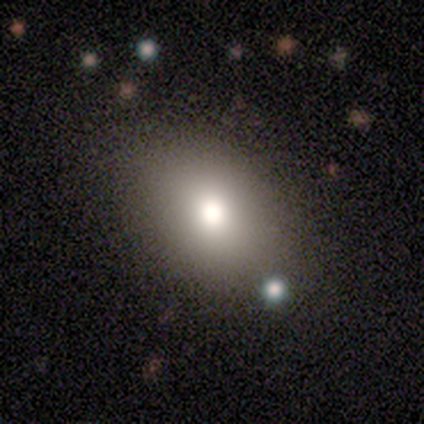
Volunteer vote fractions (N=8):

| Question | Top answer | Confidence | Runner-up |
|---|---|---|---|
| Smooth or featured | smooth | 50% | featured or disk (38%) |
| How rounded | in between | 100% | — |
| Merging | none | 100% | — |